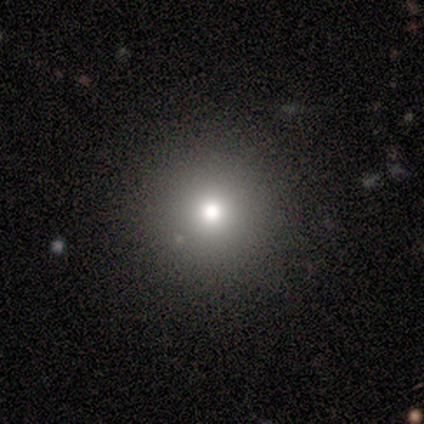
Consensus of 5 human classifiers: A smooth galaxy with no disk features (80%) that is round (100%). Merging: none (100%).